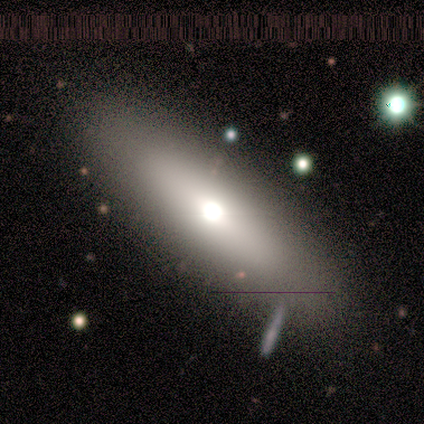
This appears to be a smooth galaxy with no disk features (50%) that is in between round and cigar-shaped (100%). Merging: none (67%).